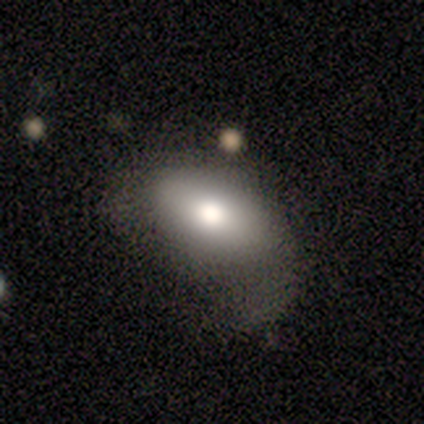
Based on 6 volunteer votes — A smooth galaxy with no disk features (67%) that is in between round and cigar-shaped (100%). Merging: major disturbance (67%).